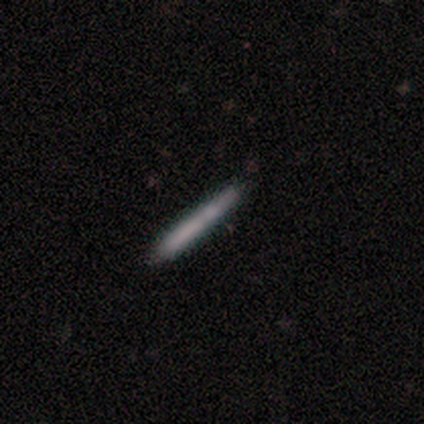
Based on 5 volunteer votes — Smooth or featured? 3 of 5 (60%) said featured or disk. Edge-on disk? 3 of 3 (100%) said yes. Edge-on bulge? 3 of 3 (100%) said none. Merging? 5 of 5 (100%) said none.